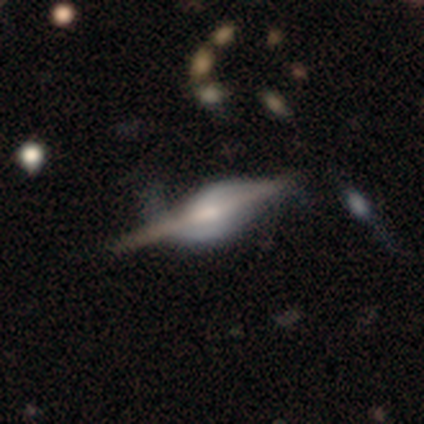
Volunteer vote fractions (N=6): smooth-or-featured: featured or disk: 83% | star or artifact: 17% | smooth: 0%
  disk-edge-on: yes: 80% | no: 20%
    edge-on-bulge: boxy: 50% (tied) | rounded: 50% (tied) | none: 0%
  merging: none: 40% (tied) | minor disturbance: 40% (tied) | major disturbance: 20% | merger: 0%